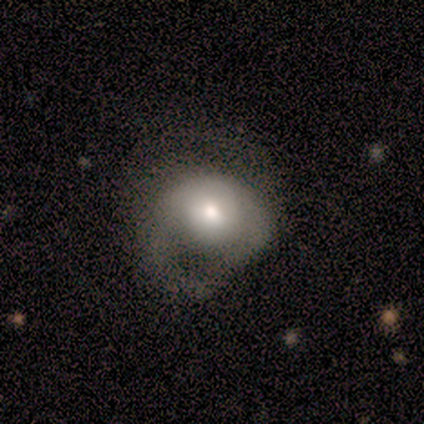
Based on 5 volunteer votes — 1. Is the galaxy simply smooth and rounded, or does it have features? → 80% smooth, 20% star or artifact, 0% featured or disk.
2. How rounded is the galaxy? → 75% in between, 25% round, 0% cigar-shaped.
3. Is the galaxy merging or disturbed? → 50% major disturbance, 25% none, 25% minor disturbance, 0% merger.